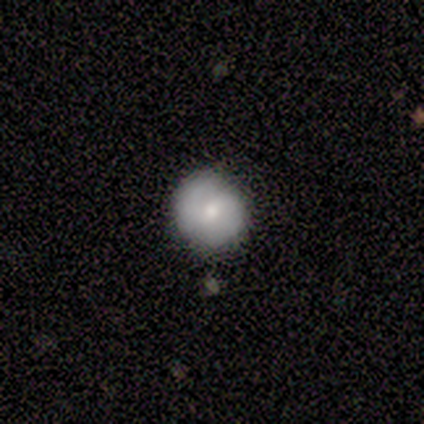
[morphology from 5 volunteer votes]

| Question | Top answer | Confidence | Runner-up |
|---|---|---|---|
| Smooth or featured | smooth | 40% | tied: featured or disk (40%) |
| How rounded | round | 100% | — |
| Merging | none | 100% | — |